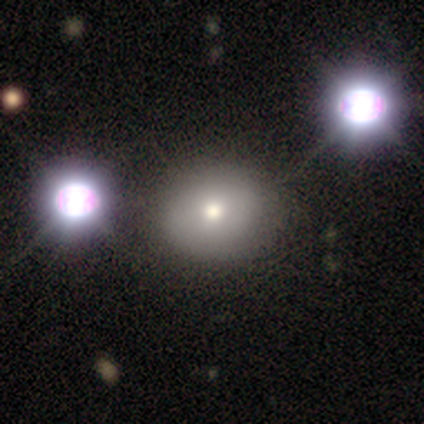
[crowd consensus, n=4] star or artifact 50%, smooth 25%, featured or disk 25%.